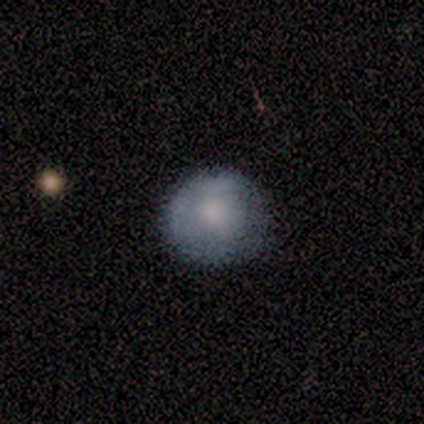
Volunteers were most divided on "merging": none: 60%, minor disturbance: 20%, major disturbance: 20%, merger: 0%. More confident: smooth or featured — smooth (100%); how rounded — round (100%).